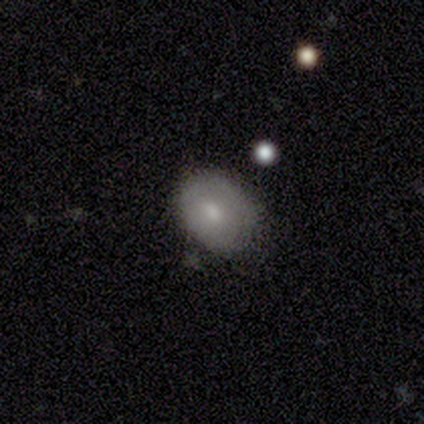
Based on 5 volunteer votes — This is clearly a smooth galaxy (100%). How rounded: likely in between (60%). Merging: likely minor disturbance (60%).